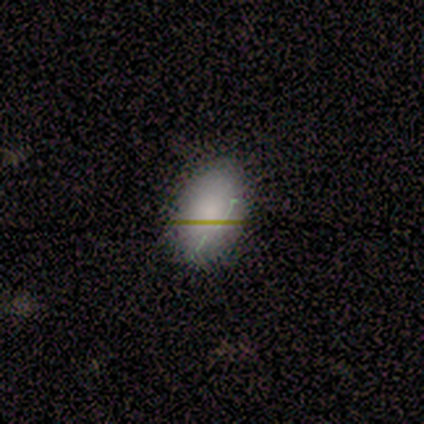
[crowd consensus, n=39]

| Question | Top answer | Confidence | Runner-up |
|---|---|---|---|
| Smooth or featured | smooth | 77% | featured or disk (13%) |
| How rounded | in between | 97% | round (3%) |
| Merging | none | 54% | minor disturbance (6%) |